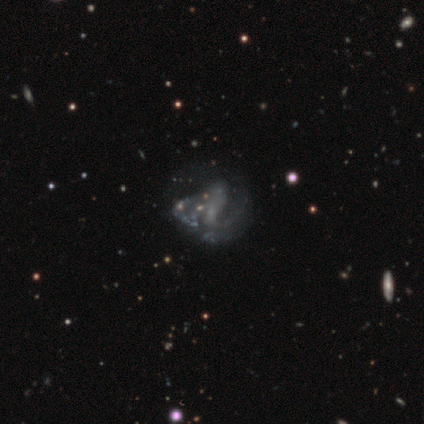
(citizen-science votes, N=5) featured or disk 60%, star or artifact 40%, smooth 0%. Down the decision tree: edge-on disk — no (100%); bar — strong (67%); spiral arms — yes (67%); spiral arm count — 2 (50%, tied with can't tell); spiral winding — tight (50%, tied with loose); bulge size — none (67%); merging — major disturbance (100%).